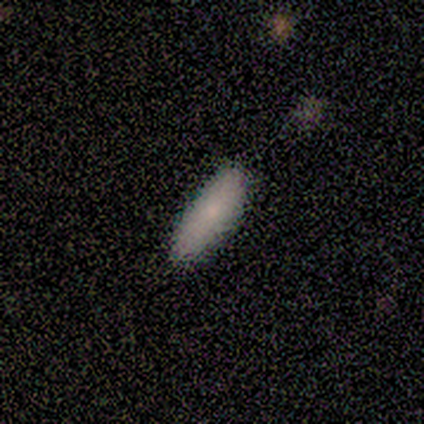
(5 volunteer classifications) A smooth galaxy with no disk features (100%) that is cigar-shaped (60%). Merging: none (80%).